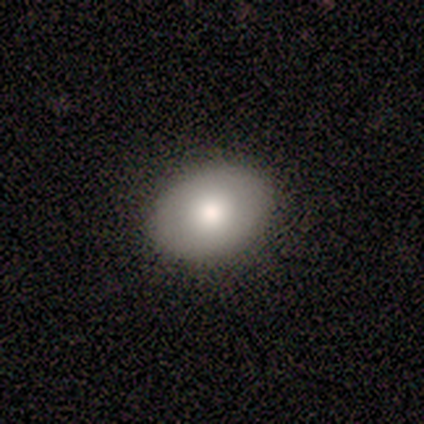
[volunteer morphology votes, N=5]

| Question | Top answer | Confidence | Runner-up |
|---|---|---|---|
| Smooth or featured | smooth | 60% | star or artifact (40%) |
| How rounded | in between | 67% | round (33%) |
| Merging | none | 67% | minor disturbance (33%) |